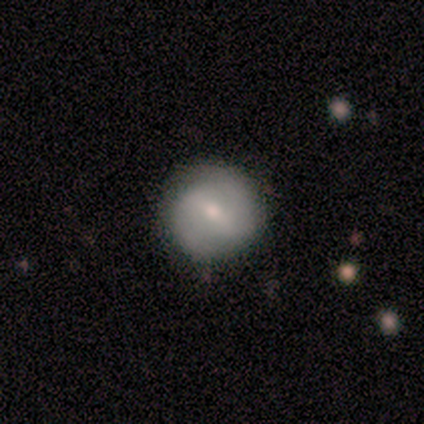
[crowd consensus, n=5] smooth_or_featured: featured or disk (p=0.60) [alt: smooth p=0.40]
disk_edge_on: no (p=0.67) [alt: yes p=0.33]
bar: weak (p=1.00)
has_spiral_arms: yes (p=1.00)
spiral_winding: tight (p=0.50) [tied with: medium p=0.50]
spiral_arm_count: 2 (p=1.00)
bulge_size: moderate (p=0.50) [tied with: small p=0.50]
merging: none (p=0.80) [alt: major disturbance p=0.20]